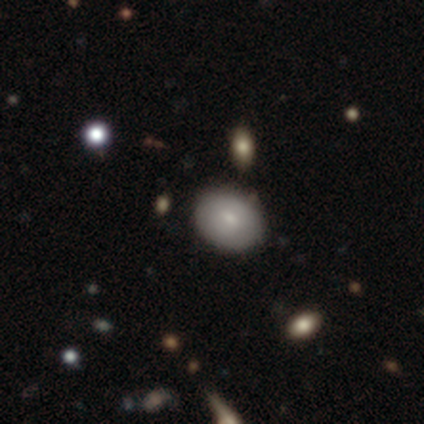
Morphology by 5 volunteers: A smooth galaxy with no disk features (60%) that is in between round and cigar-shaped (67%).

Vote fractions:
- Smooth or featured? smooth: 60% / star or artifact: 40% / featured or disk: 0%
- How rounded? in between: 67% / round: 33% / cigar-shaped: 0%
- Merging? none: 67% / minor disturbance: 33% / major disturbance: 0% / merger: 0%